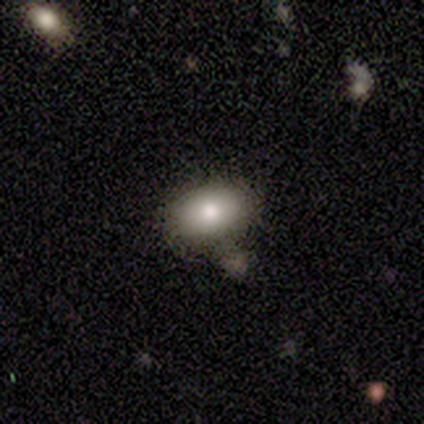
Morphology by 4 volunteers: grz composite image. It shows a smooth galaxy with no disk features (75%) that is in between round and cigar-shaped (100%). Merging: none (100%).